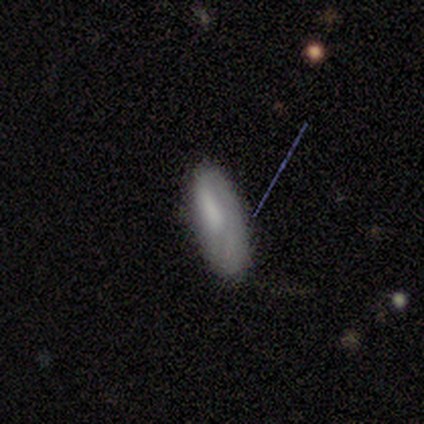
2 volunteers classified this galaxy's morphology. Overall: smooth (50%, tied with featured or disk). How rounded: cigar-shaped (100%). Merging: none (50%, tied with major disturbance).